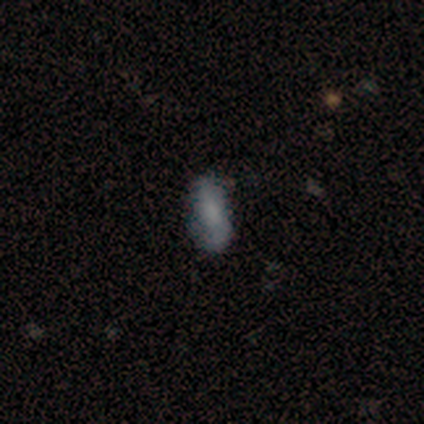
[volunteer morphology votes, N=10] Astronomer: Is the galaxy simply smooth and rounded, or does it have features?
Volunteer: smooth — 80%.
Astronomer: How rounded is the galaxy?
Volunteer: in between — 88%.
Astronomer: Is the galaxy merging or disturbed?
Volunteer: none — 70%.